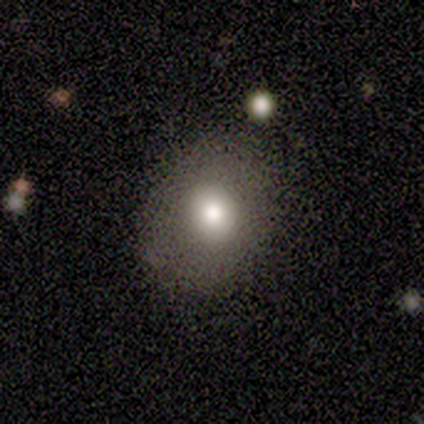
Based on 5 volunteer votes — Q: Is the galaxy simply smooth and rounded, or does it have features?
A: smooth — 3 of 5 (60%).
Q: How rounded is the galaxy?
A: round — 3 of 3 (100%).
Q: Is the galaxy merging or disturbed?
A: none — 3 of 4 (75%).